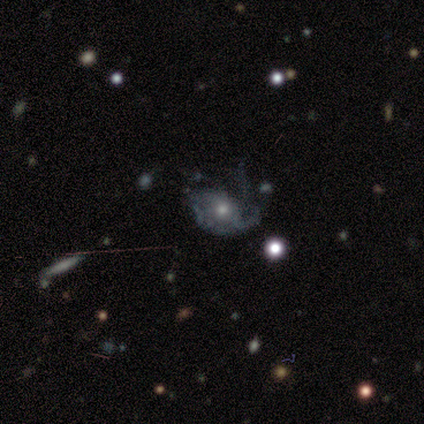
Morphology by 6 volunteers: Volunteers were most divided on "bulge size" (2-way tie): moderate: 50%, small: 50%, dominant: 0%, large: 0%, none: 0%. More confident: smooth or featured — featured or disk (100%); edge-on disk — no (100%); bar — no (100%); spiral arm count — 1 (75%); spiral arms — yes (67%); merging — major disturbance (50%); spiral winding — medium (50%).